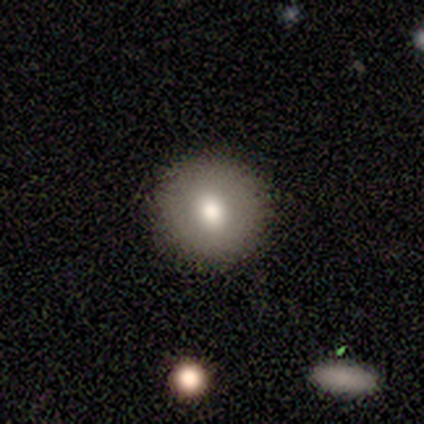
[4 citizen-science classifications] Morphology: type=smooth (75%); roundness=round (100%); merging=none (100%).